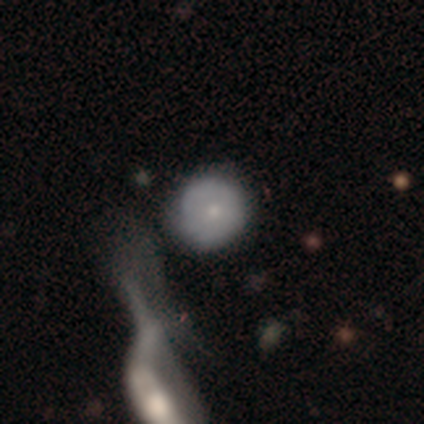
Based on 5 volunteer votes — This appears to be a smooth galaxy with no disk features (80%) that is round (100%). Merging: none (60%).